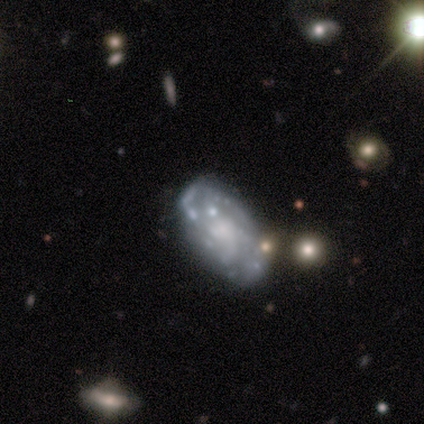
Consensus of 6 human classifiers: Smooth or featured? featured or disk (83%)
Edge-on disk? no (100%)
Bar? no (80%)
Spiral arms? yes (60%)
Spiral winding? medium (100%)
Spiral arm count? can't tell (67%)
Bulge size? none (60%)
Merging? none (50%)